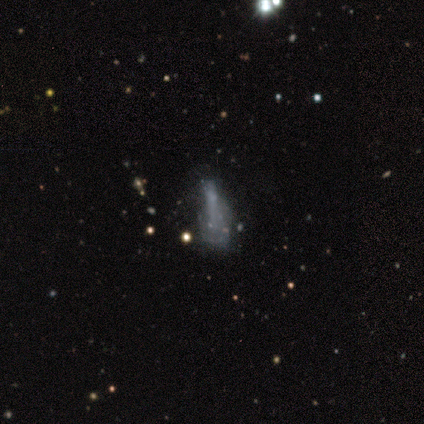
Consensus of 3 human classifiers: This is clearly a star or artifact rather than a galaxy (100%).